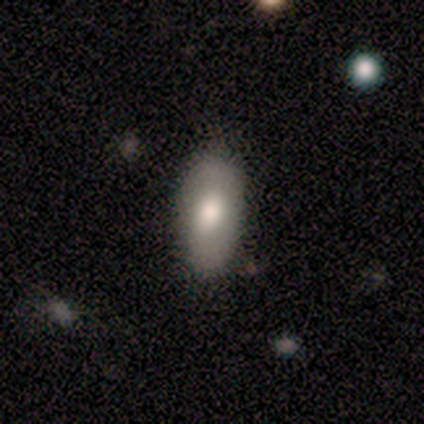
A smooth galaxy with no disk features (80%) that is in between round and cigar-shaped (100%). Merging: none (80%).